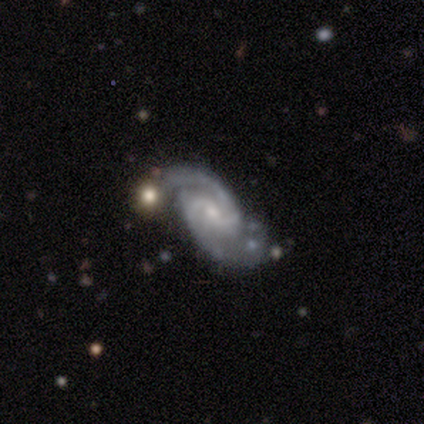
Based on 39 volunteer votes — smooth-or-featured: featured or disk: 92% | star or artifact: 5% | smooth: 3%
  disk-edge-on: no: 100% | yes: 0%
    bar: weak: 53% | no: 42% | strong: 6%
    has-spiral-arms: yes: 100% | no: 0%
      spiral-winding: medium: 47% | tight: 33% | loose: 19%
      spiral-arm-count: 2: 89% | can't tell: 6% | 1: 3% | 3: 3% | 4: 0% | more than 4: 0%
    bulge-size: small: 61% | moderate: 36% | none: 3% | dominant: 0% | large: 0%
  merging: none: 68% | minor disturbance: 22% | merger: 8% | major disturbance: 3%